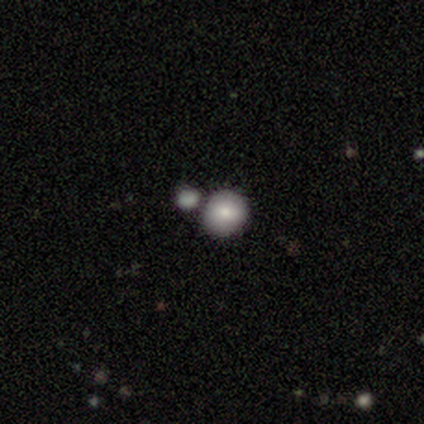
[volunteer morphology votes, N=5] Volunteers were most divided on "smooth or featured": smooth: 60%, featured or disk: 20%, star or artifact: 20%. More confident: how rounded — round (100%); merging — none (75%).